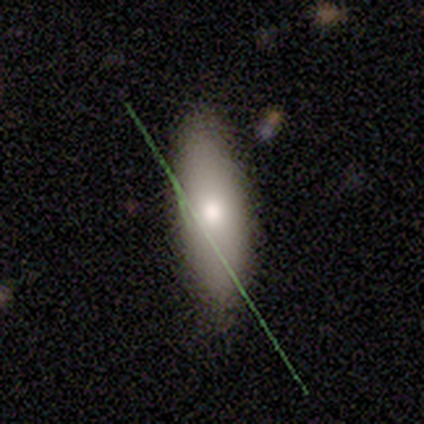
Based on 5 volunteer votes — A smooth galaxy with no disk features (100%) that is in between round and cigar-shaped (100%).

Vote fractions:
- Smooth or featured? smooth: 100% / featured or disk: 0% / star or artifact: 0%
- How rounded? in between: 100% / round: 0% / cigar-shaped: 0%
- Merging? none: 80% / minor disturbance: 20% / major disturbance: 0% / merger: 0%